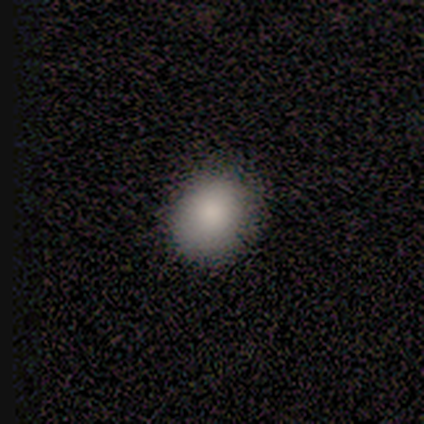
smooth 90%, star or artifact 8%, featured or disk 2%. Down the decision tree: how rounded — round (78%); merging — none (46%).